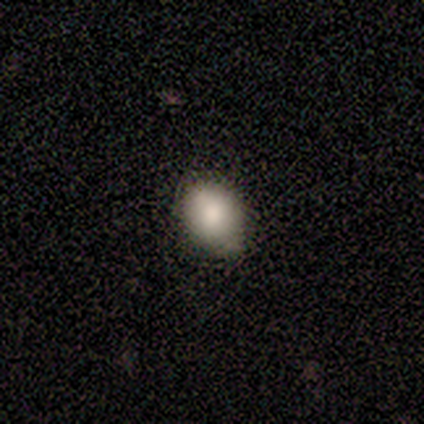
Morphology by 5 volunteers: smooth 80%, featured or disk 20%, star or artifact 0%. Down the decision tree: how rounded — round (75%); merging — none (80%).